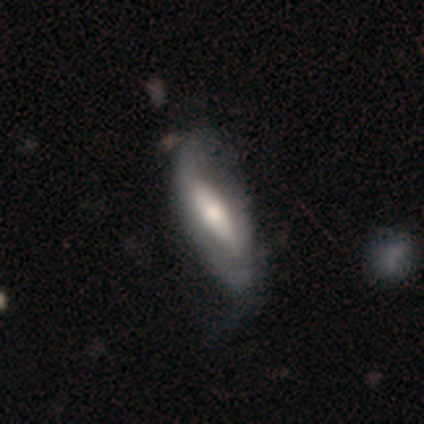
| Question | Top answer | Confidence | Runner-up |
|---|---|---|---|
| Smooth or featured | featured or disk | 48% | smooth (44%) |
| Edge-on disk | no | 71% | yes (29%) |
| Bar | no | 37% | weak (33%) |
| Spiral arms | yes | 56% | no (44%) |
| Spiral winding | tight | 47% | loose (40%) |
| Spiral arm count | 2 | 53% | 1 (27%) |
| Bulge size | moderate | 56% | large (26%) |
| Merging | minor disturbance | 22% | none (18%) |